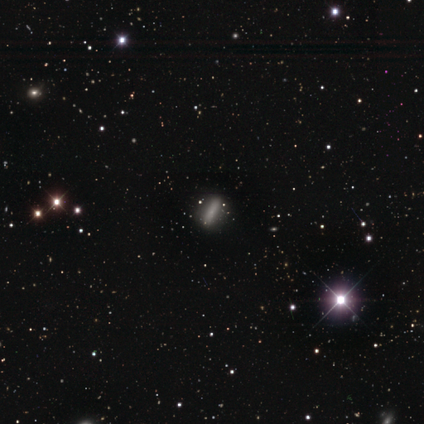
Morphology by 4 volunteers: Smooth or featured? 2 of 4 (50%) said smooth. How rounded? 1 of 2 (50%, tied with cigar-shaped) said in between. Merging? 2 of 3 (67%) said none.